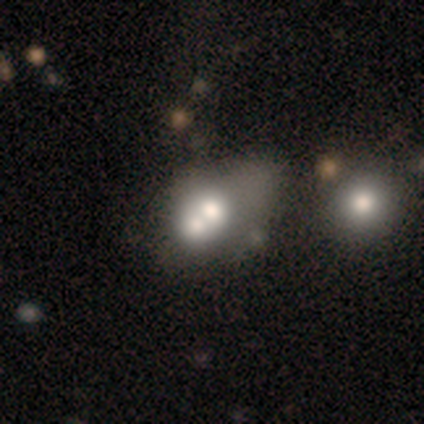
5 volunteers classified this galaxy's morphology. smooth_or_featured: smooth (p=1.00)
how_rounded: in between (p=0.80) [alt: round p=0.20]
merging: merger (p=0.60) [alt: none p=0.20]